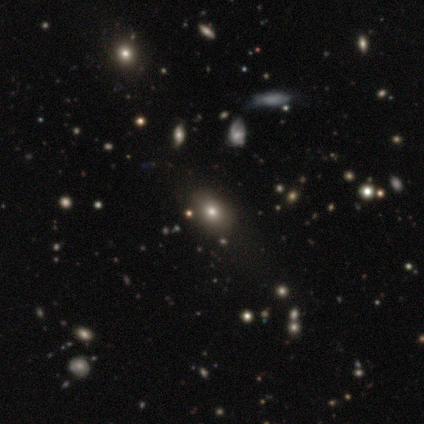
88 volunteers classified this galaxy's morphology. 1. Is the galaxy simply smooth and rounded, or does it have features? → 55% smooth, 25% star or artifact, 20% featured or disk.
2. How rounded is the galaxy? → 79% in between, 19% round, 2% cigar-shaped.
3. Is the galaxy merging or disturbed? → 80% none, 9% minor disturbance, 8% major disturbance, 3% merger.